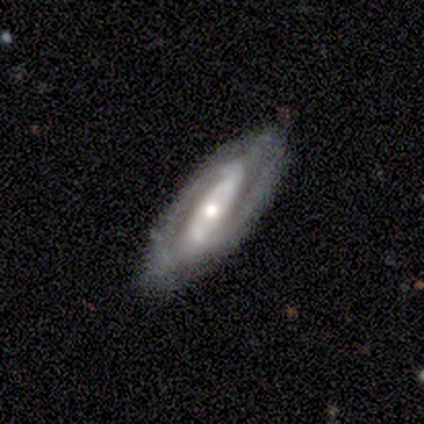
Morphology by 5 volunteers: type=featured or disk (100%); edge-on=no (80%); bar=strong (75%); spiral arms=yes (100%); winding=tight (50%); arm count=2 (75%); bulge=small (50%); merging=none (60%).